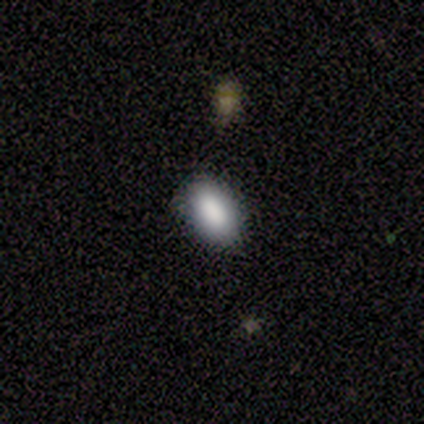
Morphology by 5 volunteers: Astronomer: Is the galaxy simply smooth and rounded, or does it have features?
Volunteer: smooth — 100%.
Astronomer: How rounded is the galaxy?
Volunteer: in between — 100%.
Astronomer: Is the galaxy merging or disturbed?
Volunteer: none — 100%.